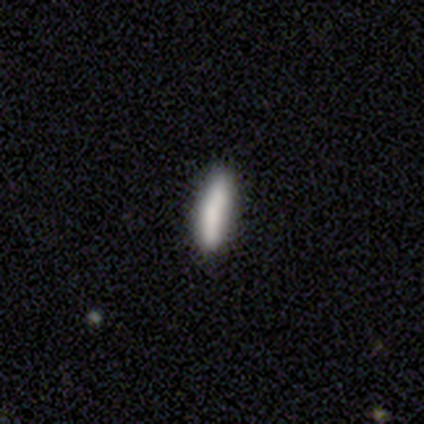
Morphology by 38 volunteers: Smooth or featured?
  - smooth: 82% *
  - star or artifact: 13%
  - featured or disk: 5%
How rounded?
  - cigar-shaped: 81% *
  - in between: 16%
  - round: 3%
Merging?
  - none: 88% *
  - minor disturbance: 9%
  - major disturbance: 3%
  - merger: 0%